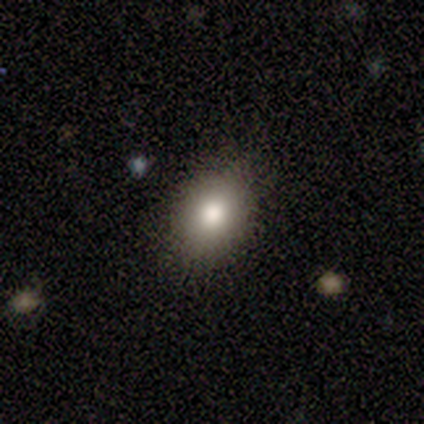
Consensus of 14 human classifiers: Morphology: type=smooth (71%); roundness=in between (70%); merging=none (82%).